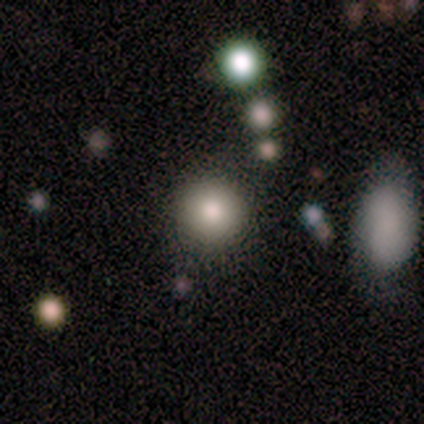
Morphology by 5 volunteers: A smooth galaxy with no disk features (60%) that is round (100%). Merging: none (75%).